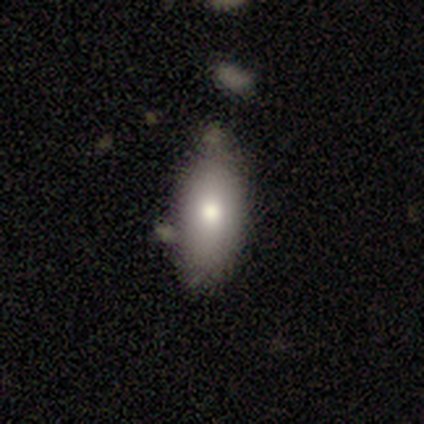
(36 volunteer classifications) smooth-or-featured: smooth: 72% | featured or disk: 19% | star or artifact: 8%
  how-rounded: in between: 88% | cigar-shaped: 12% | round: 0%
  merging: none: 61% | minor disturbance: 36% | major disturbance: 3% | merger: 0%